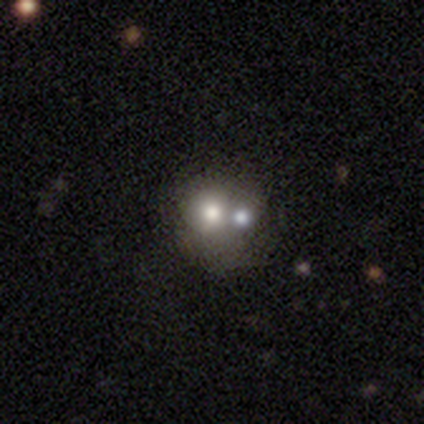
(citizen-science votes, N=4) Overall: star or artifact (75%).